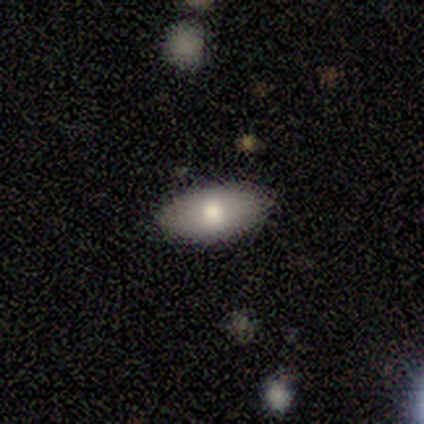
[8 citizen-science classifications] Volunteers were most divided on "smooth or featured": smooth: 88%, star or artifact: 12%, featured or disk: 0%. More confident: how rounded — in between (100%); merging — none (100%).